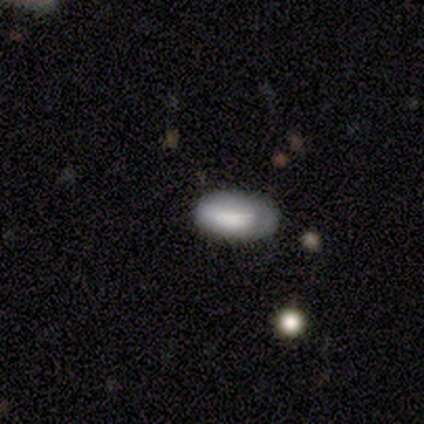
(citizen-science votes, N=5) This is clearly a smooth galaxy (100%). How rounded: clearly in between (100%). Merging: clearly none (80%).